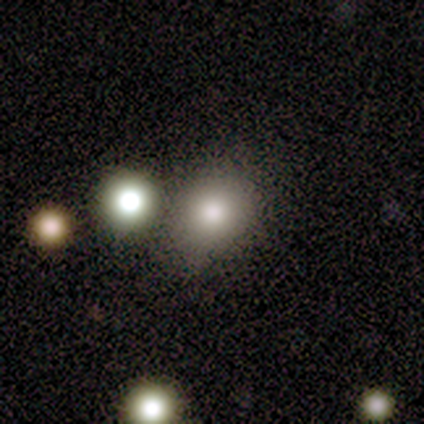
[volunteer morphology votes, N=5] Smooth or featured? 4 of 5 (80%) said smooth. How rounded? 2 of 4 (50%, tied with in between) said round. Merging? 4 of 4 (100%) said none.